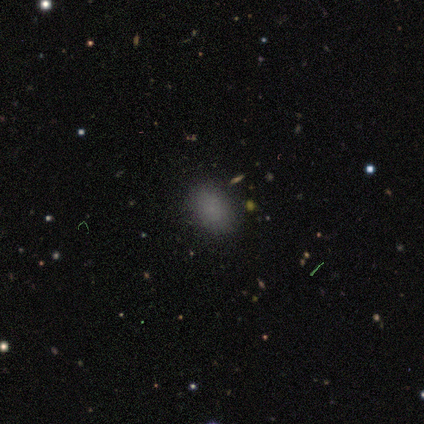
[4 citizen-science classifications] Overall: smooth (75%). How rounded: in between (100%). Merging: none (100%).